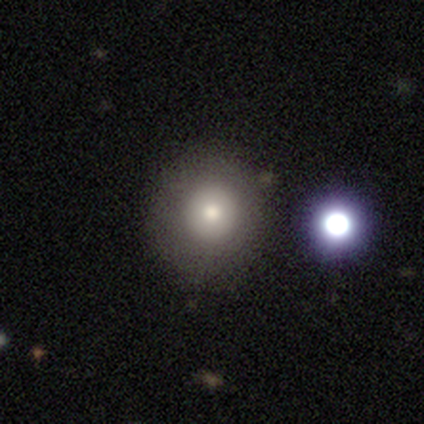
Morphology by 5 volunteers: Smooth or featured? smooth (80%)
How rounded? round (100%)
Merging? none (100%)